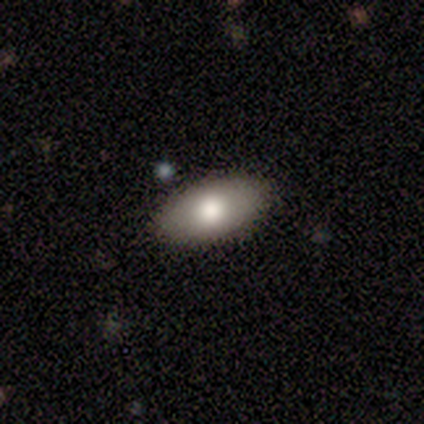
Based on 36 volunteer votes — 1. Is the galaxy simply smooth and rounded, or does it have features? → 69% smooth, 25% featured or disk, 6% star or artifact.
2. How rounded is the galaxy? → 92% in between, 8% round, 0% cigar-shaped.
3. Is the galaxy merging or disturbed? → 94% none, 3% minor disturbance, 3% merger, 0% major disturbance.